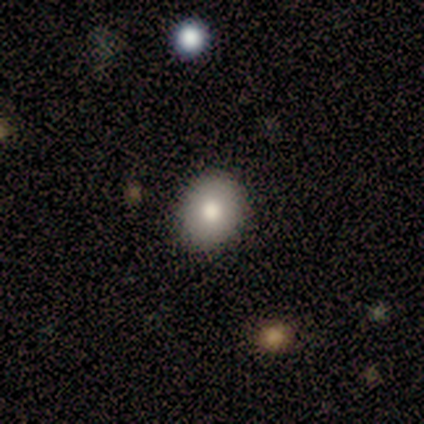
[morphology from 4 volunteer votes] Q: Smooth or featured?
A: smooth (100%)
Q: How rounded?
A: round (100%)
Q: Merging?
A: none (100%)